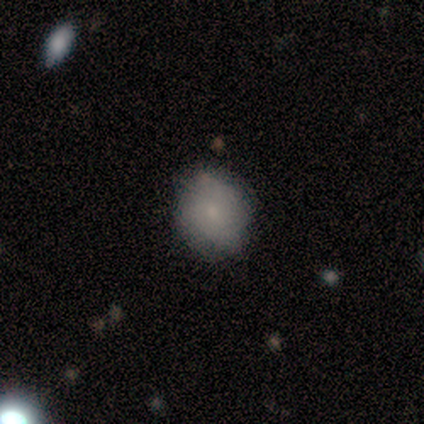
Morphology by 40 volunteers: Smooth or featured? 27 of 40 (68%) said smooth. How rounded? 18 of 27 (67%) said round. Merging? 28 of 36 (78%) said none.